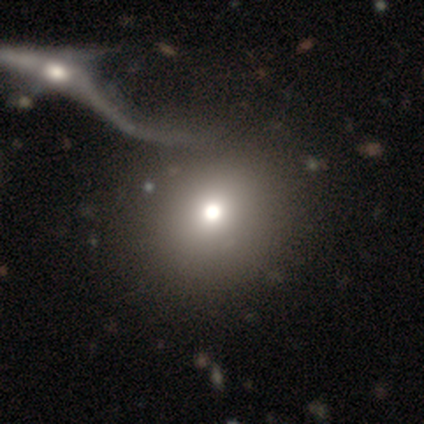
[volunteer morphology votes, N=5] Smooth or featured?
  - smooth: 60% *
  - featured or disk: 20%
  - star or artifact: 20%
How rounded?
  - round: 100% *
  - in between: 0%
  - cigar-shaped: 0%
Merging?
  - major disturbance: 50% *
  - none: 25%
  - merger: 25%
  - minor disturbance: 0%